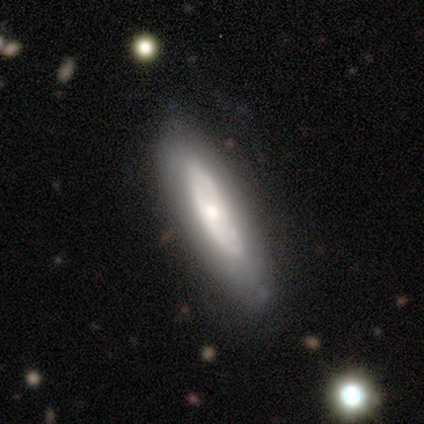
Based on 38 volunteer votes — A featured or disk galaxy (58%) with no bar (88%), no spiral arms (75%) and a small central bulge (62%).

Vote fractions:
- Smooth or featured? featured or disk: 58% / smooth: 32% / star or artifact: 11%
- Edge-on disk? no: 73% / yes: 27%
- Bar? no: 88% / strong: 6% / weak: 6%
- Spiral arms? no: 75% / yes: 25%
- Bulge size? small: 62% / moderate: 38% / dominant: 0% / large: 0% / none: 0%
- Merging? none: 74% / minor disturbance: 24% / major disturbance: 3% / merger: 0%